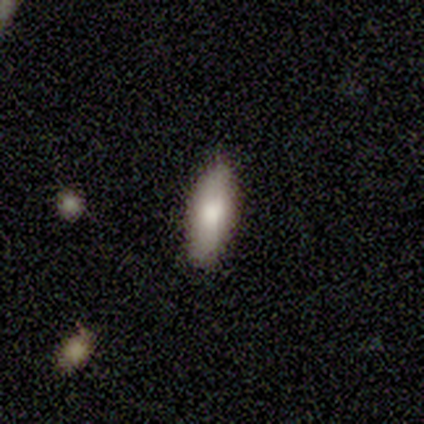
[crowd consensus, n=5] smooth-or-featured: smooth: 80% | star or artifact: 20% | featured or disk: 0%
  how-rounded: in between: 75% | cigar-shaped: 25% | round: 0%
  merging: none: 100% | minor disturbance: 0% | major disturbance: 0% | merger: 0%